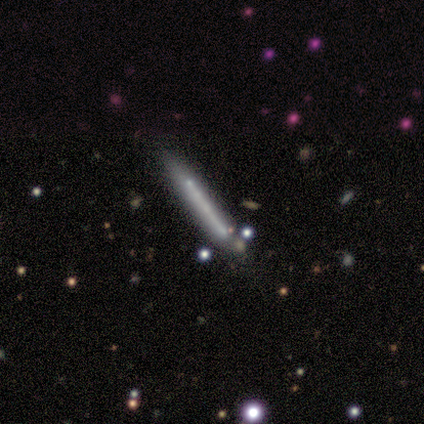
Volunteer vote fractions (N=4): Smooth or featured: smooth — 50% (featured or disk — 25%)
How rounded: cigar-shaped — 100%
Merging: none — 67% (minor disturbance — 33%)